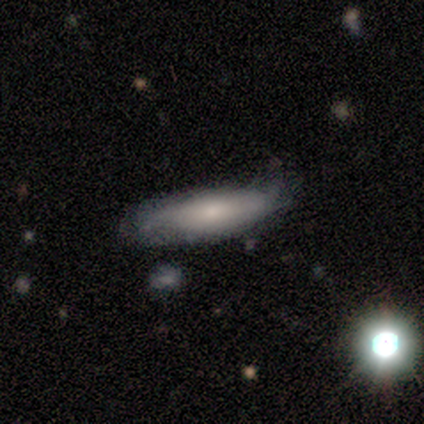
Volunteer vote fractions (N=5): A smooth galaxy with no disk features (80%) that is cigar-shaped (75%). Merging: minor disturbance (75%).